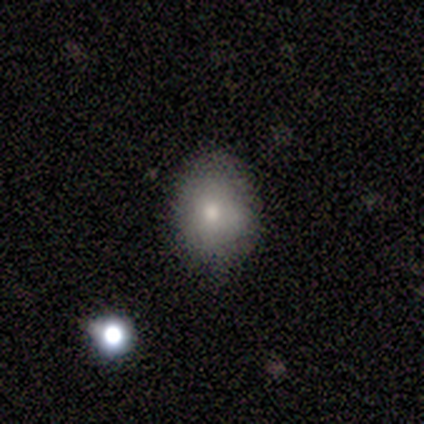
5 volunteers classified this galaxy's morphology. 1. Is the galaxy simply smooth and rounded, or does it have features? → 80% smooth, 20% featured or disk, 0% star or artifact.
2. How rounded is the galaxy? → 75% in between, 25% round, 0% cigar-shaped.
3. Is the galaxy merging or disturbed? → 60% none, 40% minor disturbance, 0% major disturbance, 0% merger.